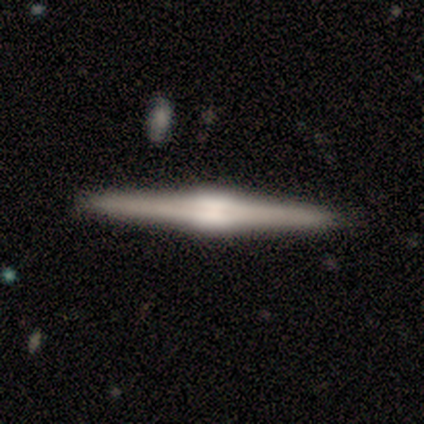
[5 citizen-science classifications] Q: Smooth or featured?
A: featured or disk (80%); runner-up: smooth (20%)
Q: Edge-on disk?
A: yes (75%); runner-up: no (25%)
Q: Edge-on bulge?
A: rounded (67%); runner-up: boxy (33%)
Q: Merging?
A: none (100%)